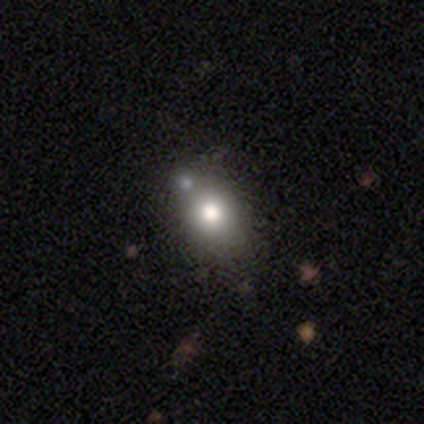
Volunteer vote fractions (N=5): Morphology: type=smooth (60%); roundness=in between (67%); merging=none (80%).